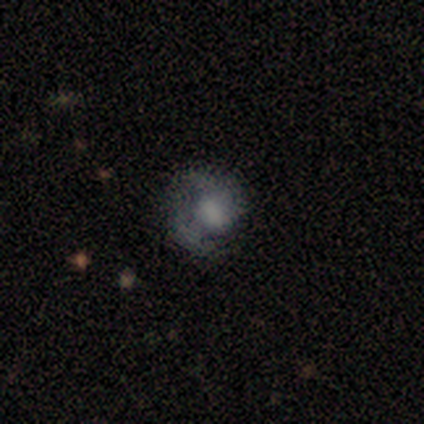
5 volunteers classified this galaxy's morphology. A smooth galaxy with no disk features (60%) that is in between round and cigar-shaped (67%).

Vote fractions:
- Smooth or featured? smooth: 60% / star or artifact: 40% / featured or disk: 0%
- How rounded? in between: 67% / round: 33% / cigar-shaped: 0%
- Merging? minor disturbance: 67% / none: 33% / major disturbance: 0% / merger: 0%